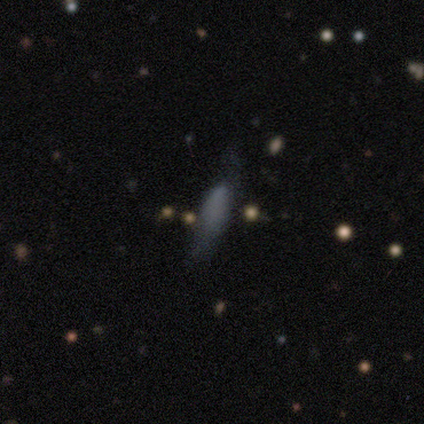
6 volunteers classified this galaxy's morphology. smooth_or_featured: smooth (p=0.33) [tied with: featured or disk p=0.33, star or artifact p=0.33]
how_rounded: cigar-shaped (p=1.00)
merging: none (p=0.50) [tied with: minor disturbance p=0.50]